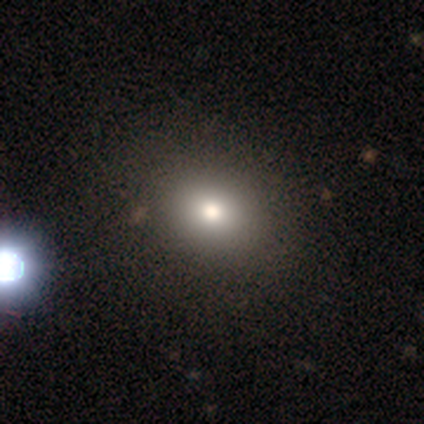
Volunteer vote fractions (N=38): Smooth or featured?
  - smooth: 79% *
  - star or artifact: 18%
  - featured or disk: 3%
How rounded?
  - round: 60% *
  - in between: 40%
  - cigar-shaped: 0%
Merging?
  - none: 77% *
  - merger: 6%
  - minor disturbance: 0%
  - major disturbance: 0%